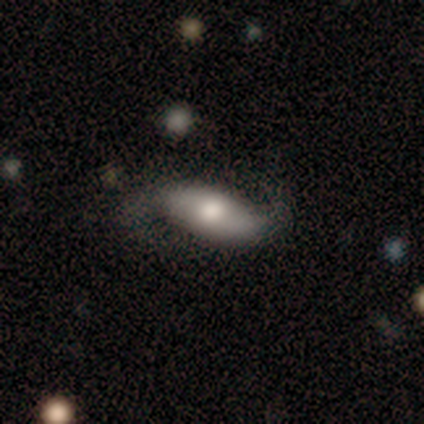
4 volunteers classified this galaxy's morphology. Volunteers were most divided on "bar": no: 67%, weak: 33%, strong: 0%. More confident: edge-on disk — no (100%); spiral arms — yes (100%); smooth or featured — featured or disk (75%); spiral winding — loose (67%); spiral arm count — 2 (67%); bulge size — large (67%); merging — none (67%).